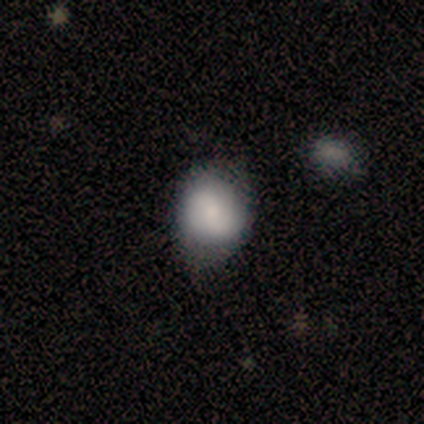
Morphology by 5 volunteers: Smooth or featured? 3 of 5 (60%) said smooth. How rounded? 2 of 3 (67%) said in between. Merging? 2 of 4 (50%) said none.